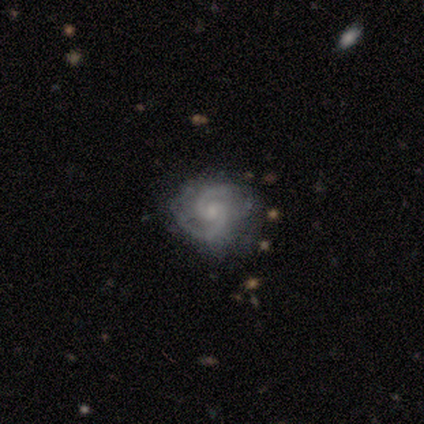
Q: Smooth or featured?
A: featured or disk (80%); runner-up: star or artifact (20%)
Q: Edge-on disk?
A: no (100%)
Q: Bar?
A: weak (50%); tied with: no (50%)
Q: Spiral arms?
A: yes (100%)
Q: Spiral winding?
A: tight (50%); runner-up: medium (25%)
Q: Spiral arm count?
A: 2 (75%); runner-up: 3 (25%)
Q: Bulge size?
A: moderate (50%); runner-up: small (25%)
Q: Merging?
A: none (75%); runner-up: minor disturbance (25%)